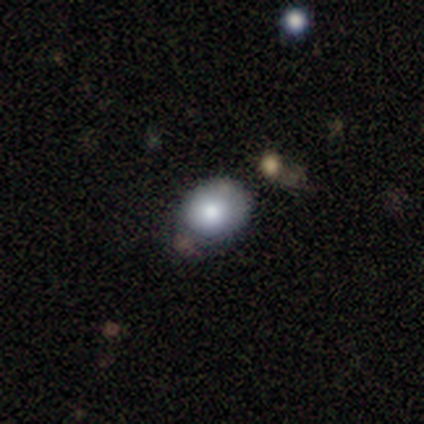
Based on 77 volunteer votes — smooth_or_featured: smooth (p=0.83) [alt: featured or disk p=0.13]
how_rounded: round (p=0.53) [alt: in between p=0.47]
merging: none (p=0.38) [alt: minor disturbance p=0.12]